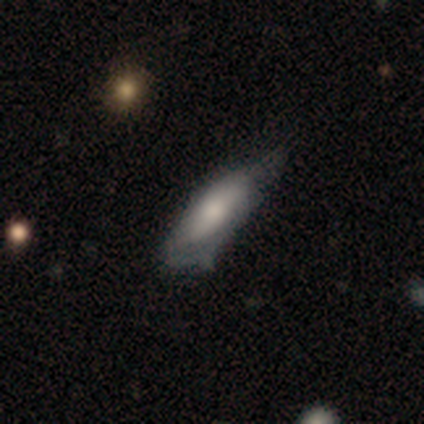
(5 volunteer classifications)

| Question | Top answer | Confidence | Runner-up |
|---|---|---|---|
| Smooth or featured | smooth | 60% | featured or disk (40%) |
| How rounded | in between | 100% | — |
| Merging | major disturbance | 60% | minor disturbance (20%) |